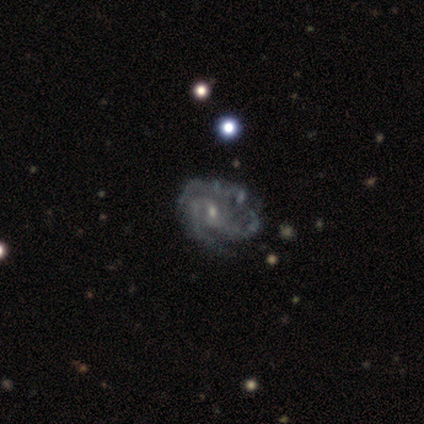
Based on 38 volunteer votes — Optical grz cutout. It shows a featured or disk galaxy (89%) with no bar (55%), 3 (71%) tight (71%) spiral arms (94%) and a small central bulge (70%). Merging: none (74%).